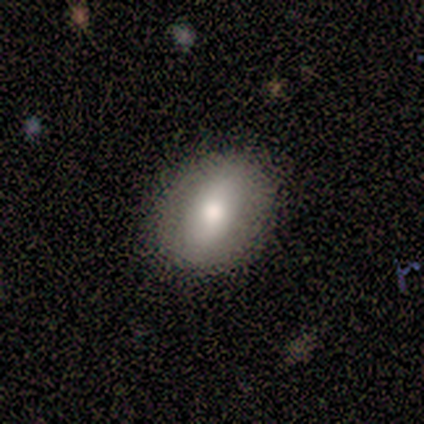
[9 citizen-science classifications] Overall: smooth (78%). How rounded: in between (71%). Merging: none (100%).